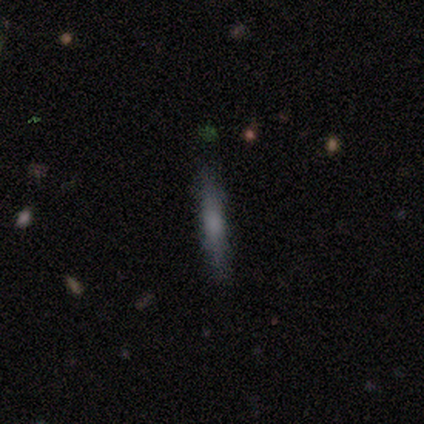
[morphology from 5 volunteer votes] This appears to be a featured or disk galaxy (60%) viewed edge-on (100%) with no central bulge (67%). Merging: none (100%).